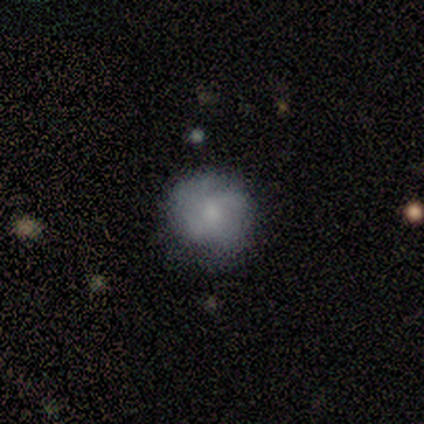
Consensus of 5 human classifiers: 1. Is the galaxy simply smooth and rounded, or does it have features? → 60% featured or disk, 40% smooth, 0% star or artifact.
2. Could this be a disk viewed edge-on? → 100% no, 0% yes.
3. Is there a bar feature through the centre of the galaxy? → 100% no, 0% strong, 0% weak.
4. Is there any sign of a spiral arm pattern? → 67% yes, 33% no.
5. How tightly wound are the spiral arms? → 50% medium (tied), 50% loose (tied), 0% tight.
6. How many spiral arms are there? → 50% 3 (tied), 50% can't tell (tied), 0% 1, 0% 2, 0% 4, 0% more than 4.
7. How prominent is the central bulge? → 67% small, 33% moderate, 0% dominant, 0% large, 0% none.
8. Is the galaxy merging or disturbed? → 100% none, 0% minor disturbance, 0% major disturbance, 0% merger.